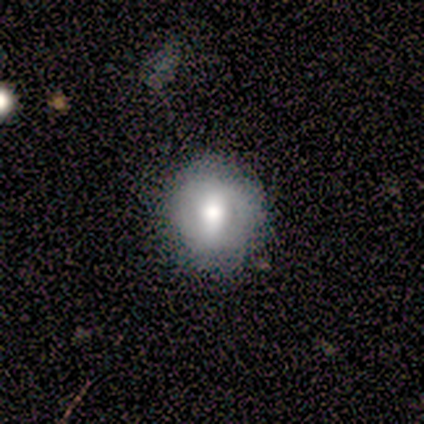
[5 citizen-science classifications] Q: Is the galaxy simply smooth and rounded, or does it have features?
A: smooth — 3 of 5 (60%).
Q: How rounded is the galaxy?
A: round — 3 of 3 (100%).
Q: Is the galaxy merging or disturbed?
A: none — 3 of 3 (100%).